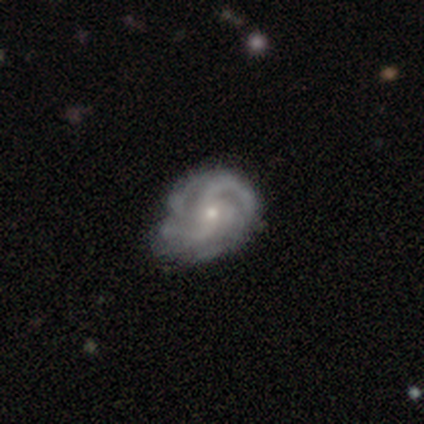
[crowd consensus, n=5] Smooth or featured?
  - featured or disk: 60% *
  - smooth: 40%
  - star or artifact: 0%
Edge-on disk?
  - no: 100% *
  - yes: 0%
Bar?
  - no: 100% *
  - strong: 0%
  - weak: 0%
Spiral arms?
  - yes: 100% *
  - no: 0%
Spiral winding?
  - tight: 33% * (tied)
  - medium: 33% * (tied)
  - loose: 33% * (tied)
Spiral arm count?
  - 2: 33% * (tied)
  - 3: 33% * (tied)
  - 4: 33% * (tied)
  - 1: 0%
  - more than 4: 0%
  - can't tell: 0%
Bulge size?
  - small: 67% *
  - moderate: 33%
  - dominant: 0%
  - large: 0%
  - none: 0%
Merging?
  - none: 60% *
  - minor disturbance: 20%
  - merger: 20%
  - major disturbance: 0%